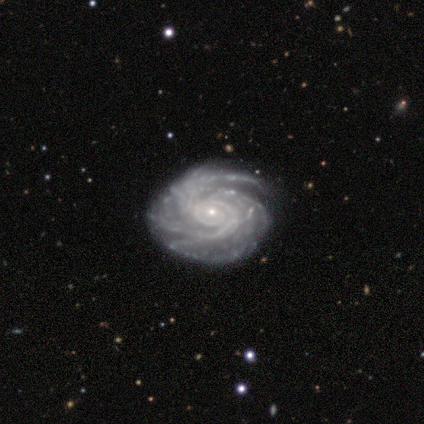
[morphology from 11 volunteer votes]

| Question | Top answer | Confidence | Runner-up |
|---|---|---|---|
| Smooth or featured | featured or disk | 100% | — |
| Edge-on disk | no | 100% | — |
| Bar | no | 73% | weak (18%) |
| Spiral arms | yes | 100% | — |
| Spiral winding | tight | 91% | medium (9%) |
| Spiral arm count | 3 | 36% | tied: 4 (36%) |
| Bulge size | small | 91% | moderate (9%) |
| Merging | none | 91% | major disturbance (9%) |